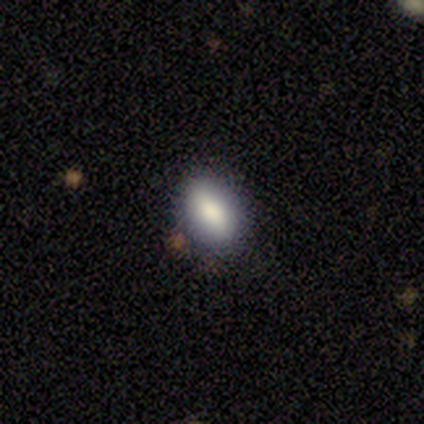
smooth_or_featured: smooth (p=1.00)
how_rounded: in between (p=1.00)
merging: none (p=0.80) [alt: major disturbance p=0.20]